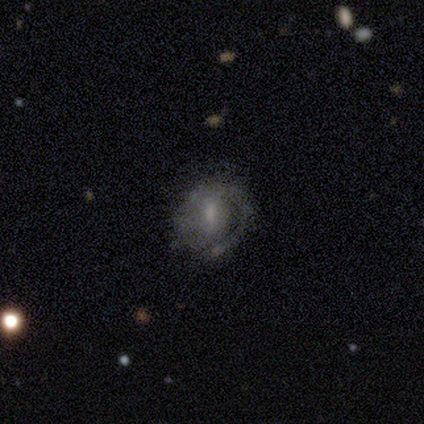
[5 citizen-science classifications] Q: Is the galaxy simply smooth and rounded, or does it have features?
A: smooth — 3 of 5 (60%).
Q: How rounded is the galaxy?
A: round — 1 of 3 (33%, tied with in between and cigar-shaped).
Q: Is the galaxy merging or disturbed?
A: none — 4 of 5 (80%).